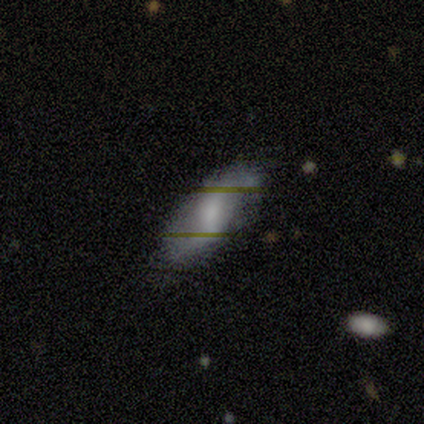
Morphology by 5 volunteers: Volunteers were most divided on "how rounded": in between: 75%, cigar-shaped: 25%, round: 0%. More confident: smooth or featured — smooth (80%); merging — none (80%).